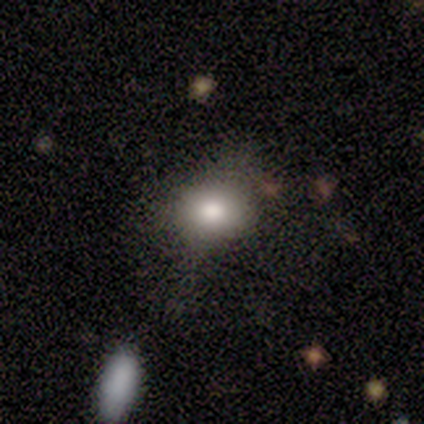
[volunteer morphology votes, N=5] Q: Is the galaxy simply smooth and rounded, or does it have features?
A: smooth — 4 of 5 (80%).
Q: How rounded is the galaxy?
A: round — 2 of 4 (50%, tied with in between).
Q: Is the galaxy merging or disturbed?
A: none — 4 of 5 (80%).